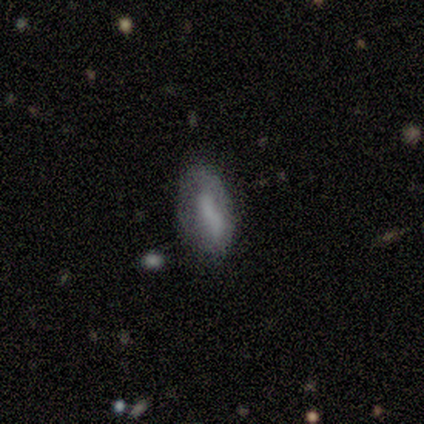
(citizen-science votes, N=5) Q: Smooth or featured?
A: smooth (60%); runner-up: featured or disk (40%)
Q: How rounded?
A: in between (100%)
Q: Merging?
A: minor disturbance (60%); runner-up: none (40%)